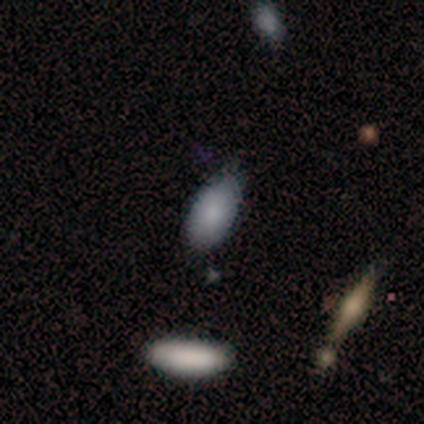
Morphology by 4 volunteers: smooth-or-featured: smooth: 100% | featured or disk: 0% | star or artifact: 0%
  how-rounded: in between: 100% | round: 0% | cigar-shaped: 0%
  merging: none: 50% | minor disturbance: 25% | merger: 25% | major disturbance: 0%